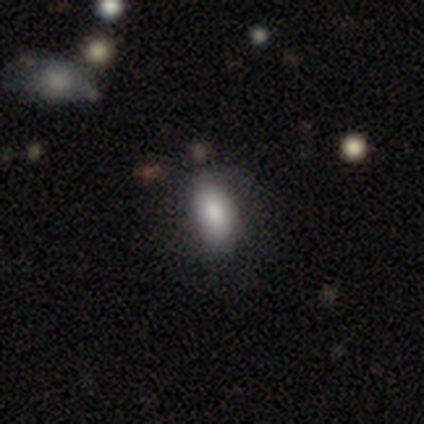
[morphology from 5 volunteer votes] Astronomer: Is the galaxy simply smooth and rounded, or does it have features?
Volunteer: smooth — 100%.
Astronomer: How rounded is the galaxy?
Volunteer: in between — 100%.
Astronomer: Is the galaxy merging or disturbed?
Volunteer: none — 60% (runner-up: minor disturbance, 40%).